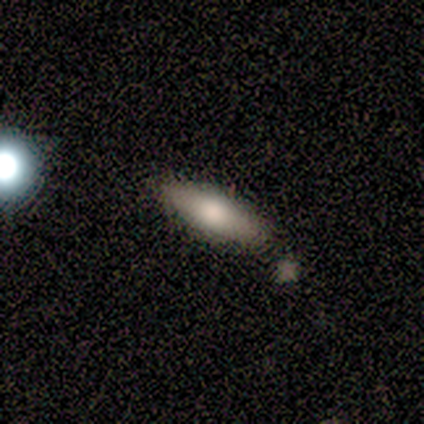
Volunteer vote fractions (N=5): A smooth galaxy with no disk features (60%) that is in between round and cigar-shaped (67%). Merging: none (75%).